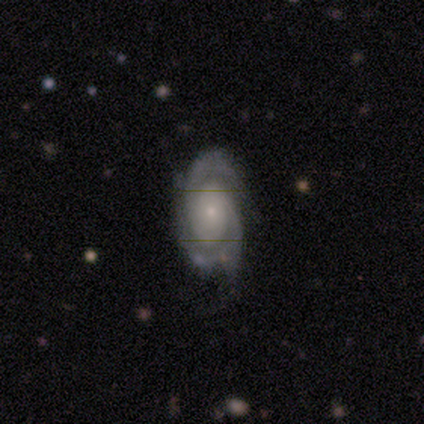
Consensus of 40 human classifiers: Morphology: type=featured or disk (98%); edge-on=no (100%); bar=no (77%); spiral arms=yes (97%); winding=tight (61%); arm count=2 (68%); bulge=small (79%); merging=none (77%).